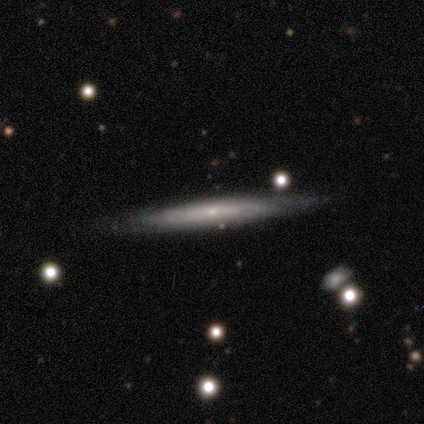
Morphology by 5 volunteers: A featured or disk galaxy (60%) viewed edge-on (100%) with a rounded central bulge (67%).

Vote fractions:
- Smooth or featured? featured or disk: 60% / smooth: 40% / star or artifact: 0%
- Edge-on disk? yes: 100% / no: 0%
- Edge-on bulge? rounded: 67% / none: 33% / boxy: 0%
- Merging? none: 100% / minor disturbance: 0% / major disturbance: 0% / merger: 0%